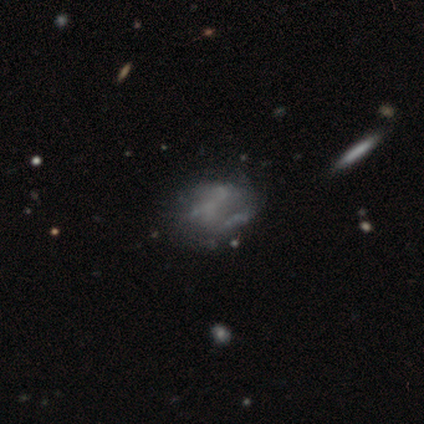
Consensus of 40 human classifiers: Volunteers were most divided on "merging": none: 26%, major disturbance: 14%, merger: 14%, minor disturbance: 9%. More confident: edge-on disk — no (100%); spiral arms — no (90%); bulge size — none (90%); bar — no (85%); smooth or featured — featured or disk (50%).